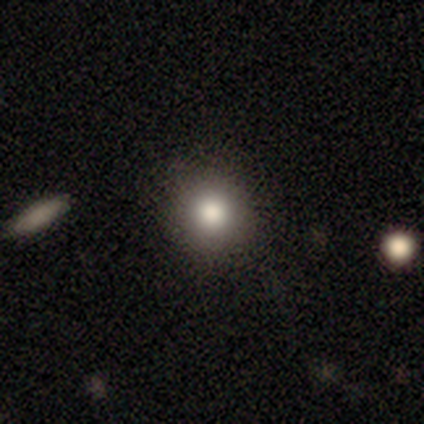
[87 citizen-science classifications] Morphology: type=smooth (82%); roundness=round (94%); merging=none (88%).